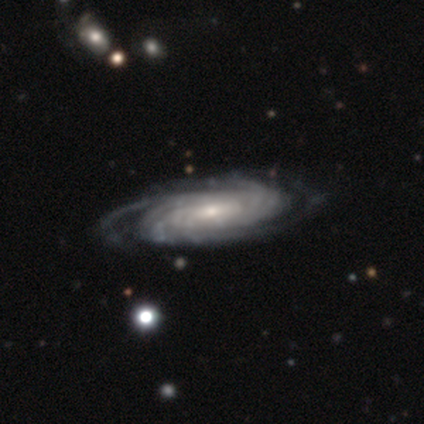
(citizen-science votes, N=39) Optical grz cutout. It shows a featured or disk galaxy (100%) with no bar (58%), tight (69%) spiral arms (100%) and a small central bulge (50%). Merging: none (46%).